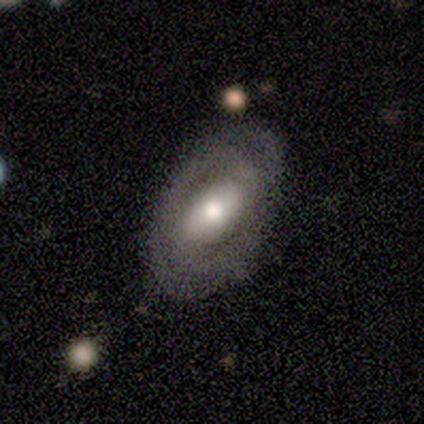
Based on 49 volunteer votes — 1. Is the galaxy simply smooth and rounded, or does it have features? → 65% featured or disk, 27% smooth, 8% star or artifact.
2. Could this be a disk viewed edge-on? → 97% no, 3% yes.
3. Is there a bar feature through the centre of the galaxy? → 35% strong (tied), 35% weak (tied), 29% no.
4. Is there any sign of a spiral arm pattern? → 55% yes, 45% no.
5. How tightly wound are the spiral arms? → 65% tight, 24% medium, 12% loose.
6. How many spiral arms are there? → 59% 2, 29% can't tell, 6% 1, 6% 3, 0% 4, 0% more than 4.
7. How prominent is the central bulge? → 58% moderate, 29% large, 10% small, 3% none, 0% dominant.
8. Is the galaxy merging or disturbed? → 64% none, 24% minor disturbance, 11% major disturbance, 0% merger.